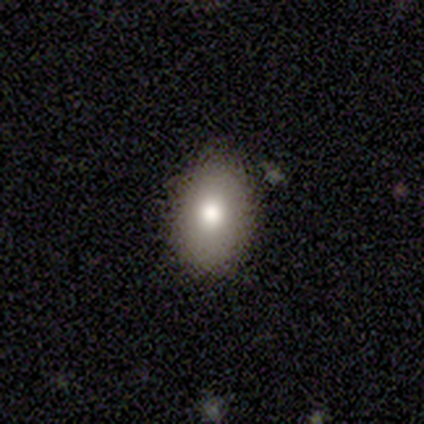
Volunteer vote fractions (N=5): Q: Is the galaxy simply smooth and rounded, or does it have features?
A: smooth — 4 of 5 (80%).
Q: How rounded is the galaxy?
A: in between — 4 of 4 (100%).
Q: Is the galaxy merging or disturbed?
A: none — 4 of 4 (100%).